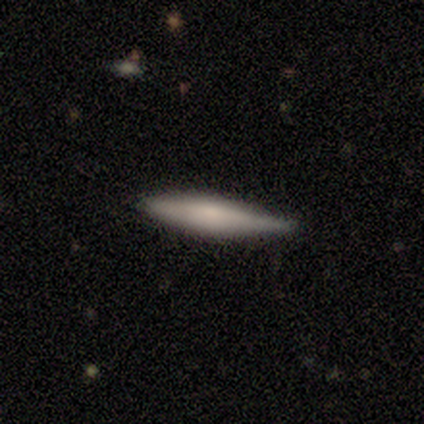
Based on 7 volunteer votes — smooth_or_featured: smooth (p=0.86) [alt: featured or disk p=0.14]
how_rounded: cigar-shaped (p=0.83) [alt: in between p=0.17]
merging: none (p=0.86) [alt: minor disturbance p=0.14]